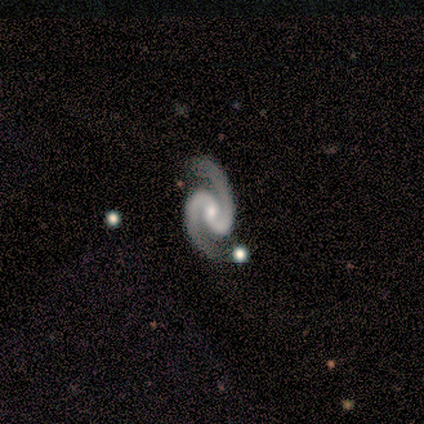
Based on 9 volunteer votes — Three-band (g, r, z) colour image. It shows a featured or disk galaxy (89%) with a weak bar (50%), 2 (100%) medium (71%) spiral arms (88%) and a small central bulge (62%). Merging: none (100%).